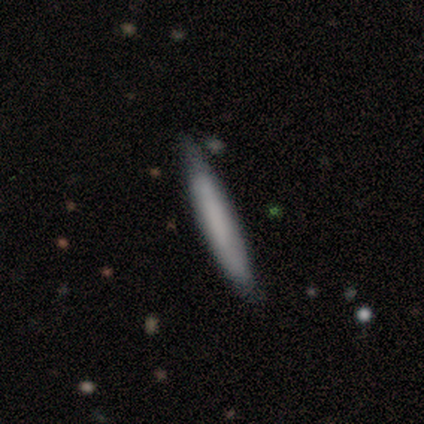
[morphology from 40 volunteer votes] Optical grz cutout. It shows a smooth galaxy with no disk features (80%) that is cigar-shaped (97%). Merging: none (85%).